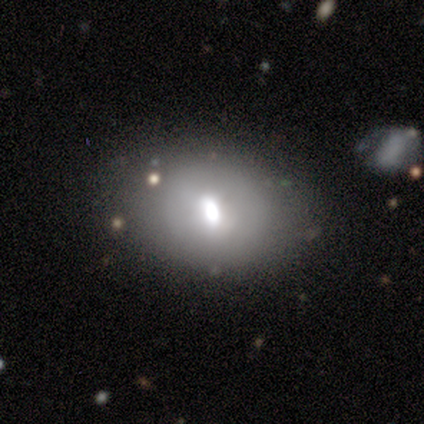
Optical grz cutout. It shows a smooth galaxy with no disk features (60%) that is in between round and cigar-shaped (67%). Merging: none (80%).